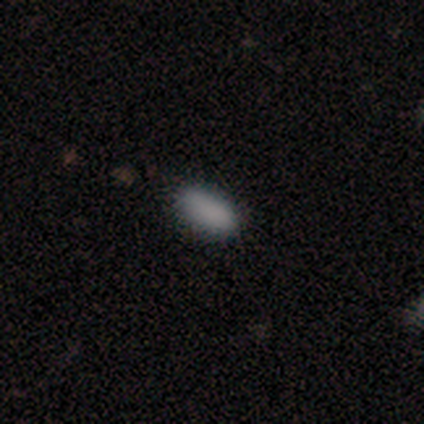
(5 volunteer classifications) This is clearly a smooth galaxy (80%). How rounded: clearly in between (100%). Merging: likely minor disturbance (60%).